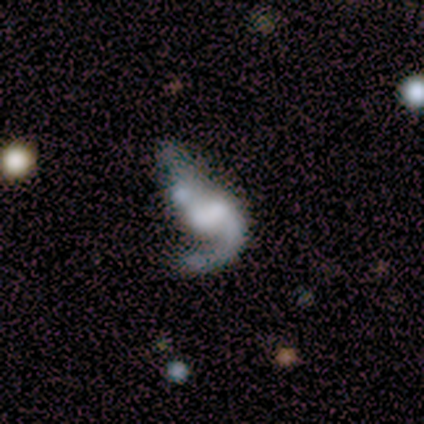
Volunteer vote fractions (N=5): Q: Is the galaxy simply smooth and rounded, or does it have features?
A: featured or disk — 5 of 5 (100%).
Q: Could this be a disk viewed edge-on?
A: no — 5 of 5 (100%).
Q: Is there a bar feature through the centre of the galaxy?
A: no — 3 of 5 (60%).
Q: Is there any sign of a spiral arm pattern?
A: yes — 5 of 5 (100%).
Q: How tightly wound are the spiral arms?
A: medium — 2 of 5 (40%, tied with loose).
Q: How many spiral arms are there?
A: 1 — 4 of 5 (80%).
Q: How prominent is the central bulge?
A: none — 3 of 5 (60%).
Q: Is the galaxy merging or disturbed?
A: merger — 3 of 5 (60%).